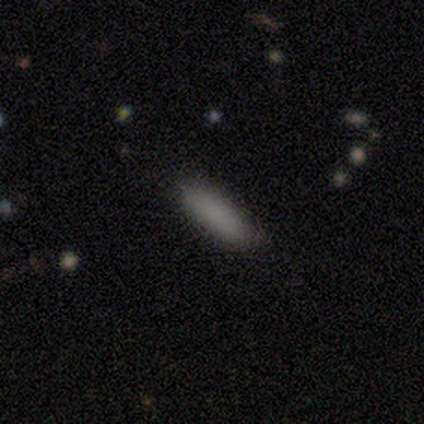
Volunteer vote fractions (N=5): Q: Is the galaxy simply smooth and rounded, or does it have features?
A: smooth — 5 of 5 (100%).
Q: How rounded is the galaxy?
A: cigar-shaped — 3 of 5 (60%).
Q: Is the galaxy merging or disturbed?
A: none — 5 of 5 (100%).